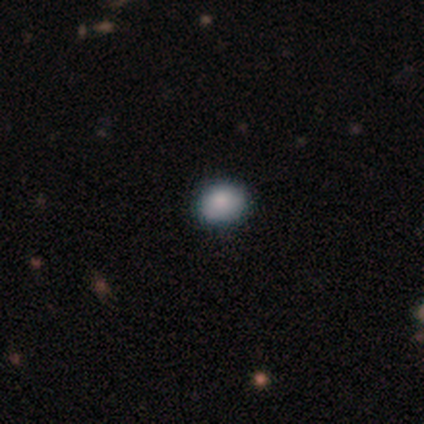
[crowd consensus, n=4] Smooth or featured?
  - smooth: 75% *
  - star or artifact: 25%
  - featured or disk: 0%
How rounded?
  - in between: 100% *
  - round: 0%
  - cigar-shaped: 0%
Merging?
  - minor disturbance: 67% *
  - none: 33%
  - major disturbance: 0%
  - merger: 0%